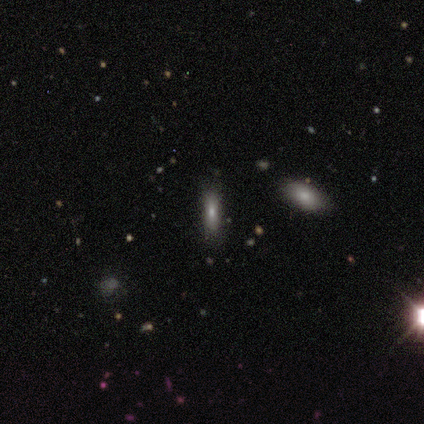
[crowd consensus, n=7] Smooth or featured? smooth (71%)
How rounded? in between (60%)
Merging? none (60%)